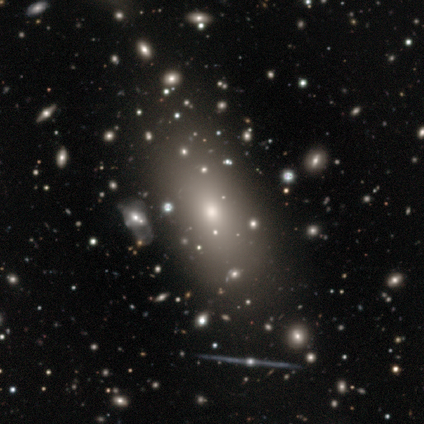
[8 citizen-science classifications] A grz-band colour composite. It shows a smooth galaxy with no disk features (75%) that is in between round and cigar-shaped (100%). Merging: none (50%).